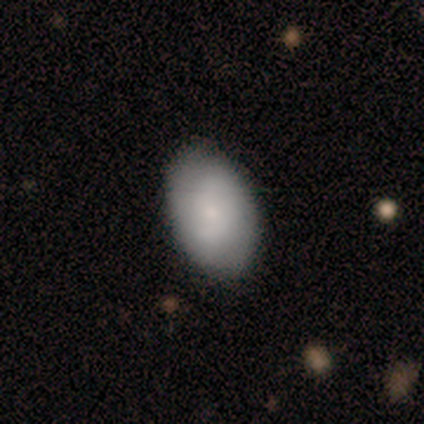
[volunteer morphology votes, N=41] A smooth galaxy with no disk features (61%) that is in between round and cigar-shaped (88%). Merging: none (67%).